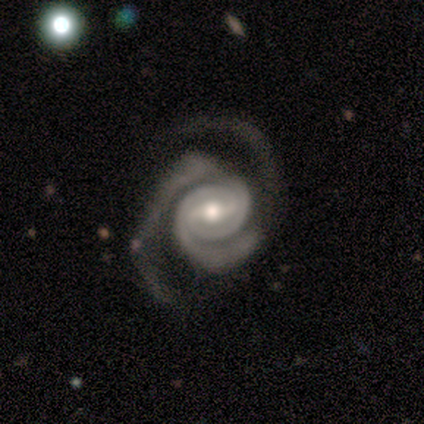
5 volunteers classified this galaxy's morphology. Q: Smooth or featured?
A: featured or disk (80%); runner-up: smooth (20%)
Q: Edge-on disk?
A: no (100%)
Q: Bar?
A: strong (50%); tied with: weak (50%)
Q: Spiral arms?
A: yes (100%)
Q: Spiral winding?
A: tight (100%)
Q: Spiral arm count?
A: 2 (75%); runner-up: 3 (25%)
Q: Bulge size?
A: moderate (100%)
Q: Merging?
A: none (80%); runner-up: major disturbance (20%)